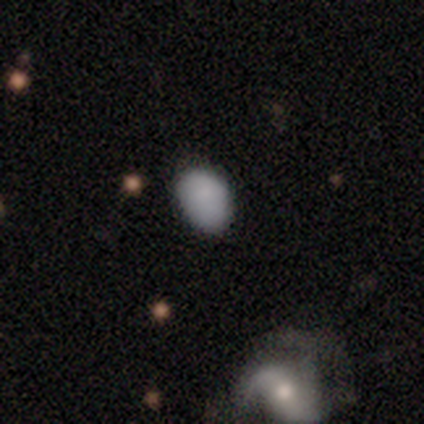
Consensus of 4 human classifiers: Smooth or featured? smooth (100%)
How rounded? in between (100%)
Merging? none (100%)